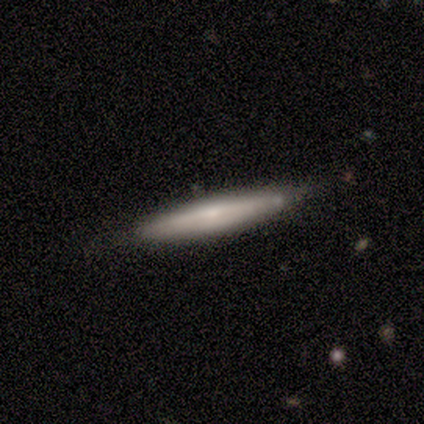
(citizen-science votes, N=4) Morphology: type=smooth (75%); roundness=cigar-shaped (100%); merging=none (75%).